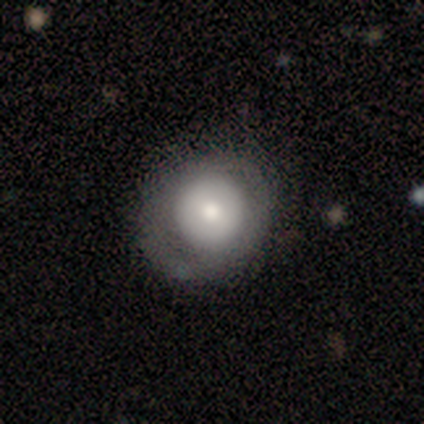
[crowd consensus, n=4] This appears to be a smooth galaxy with no disk features (50%, tied with featured or disk) that is round (100%). Merging: none (75%).